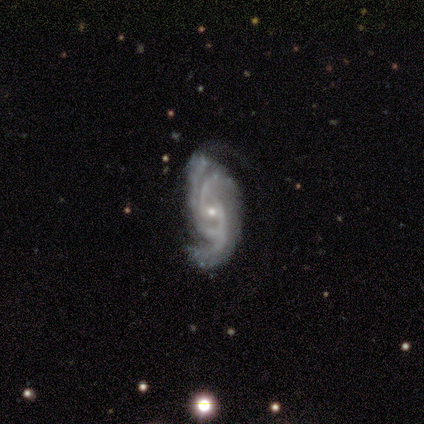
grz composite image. It shows a featured or disk galaxy (100%) with no bar (73%), 3 (53%) medium (40%) spiral arms (100%) and a small central bulge (93%). Merging: none (40%).